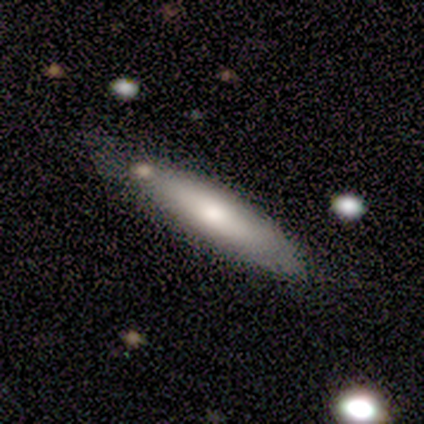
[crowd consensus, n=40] smooth_or_featured: smooth (p=0.68) [alt: featured or disk p=0.28]
how_rounded: cigar-shaped (p=0.85) [alt: in between p=0.15]
merging: none (p=0.61) [alt: minor disturbance p=0.32]